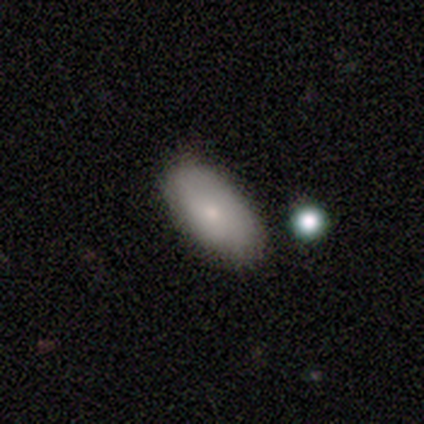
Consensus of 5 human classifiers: Morphology: type=smooth (80%); roundness=in between (100%); merging=none (50%, tied with minor disturbance).